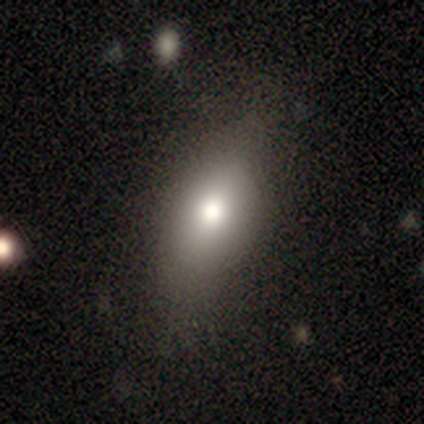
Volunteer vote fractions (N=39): Smooth or featured?
  - smooth: 82% *
  - featured or disk: 13%
  - star or artifact: 5%
How rounded?
  - in between: 81% *
  - round: 19%
  - cigar-shaped: 0%
Merging?
  - none: 59% *
  - minor disturbance: 8%
  - merger: 5%
  - major disturbance: 0%